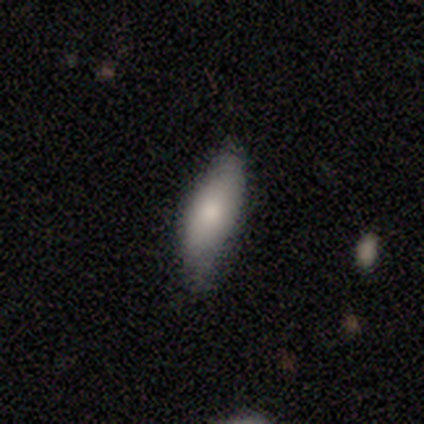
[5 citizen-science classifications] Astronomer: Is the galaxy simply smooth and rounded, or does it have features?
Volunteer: smooth — 80%.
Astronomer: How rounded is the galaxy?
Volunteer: in between — 50%, tied with cigar-shaped at 50%.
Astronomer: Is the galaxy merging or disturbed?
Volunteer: minor disturbance — 60% (runner-up: none, 40%).